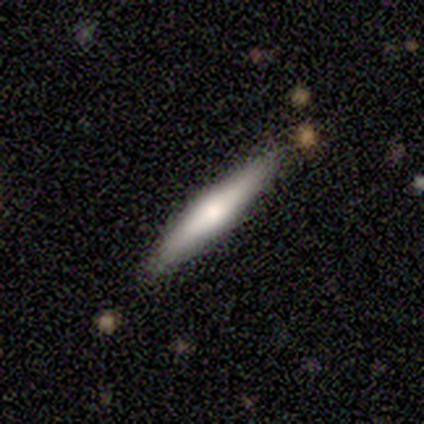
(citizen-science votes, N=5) Smooth or featured: smooth — 60% (featured or disk — 40%)
How rounded: cigar-shaped — 100%
Merging: none — 100%